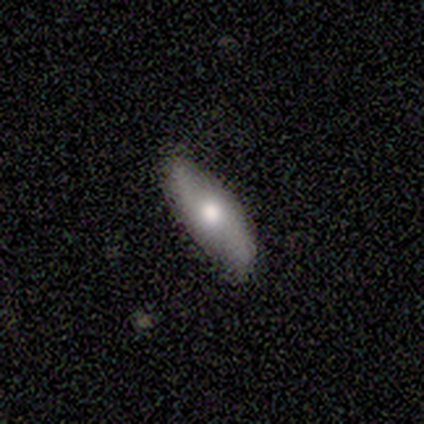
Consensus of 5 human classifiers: A smooth galaxy with no disk features (60%) that is in between round and cigar-shaped (100%).

Vote fractions:
- Smooth or featured? smooth: 60% / featured or disk: 40% / star or artifact: 0%
- How rounded? in between: 100% / round: 0% / cigar-shaped: 0%
- Merging? none: 100% / minor disturbance: 0% / major disturbance: 0% / merger: 0%